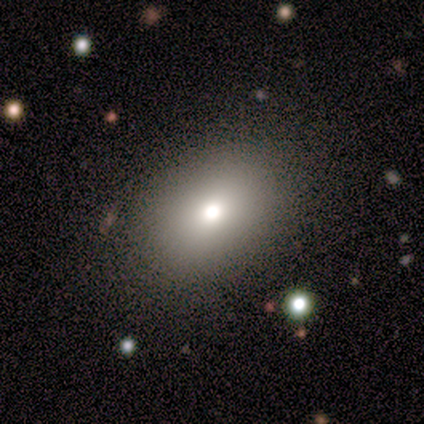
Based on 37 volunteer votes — Smooth or featured? 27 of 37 (73%) said smooth. How rounded? 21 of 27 (78%) said in between. Merging? 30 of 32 (94%) said none.